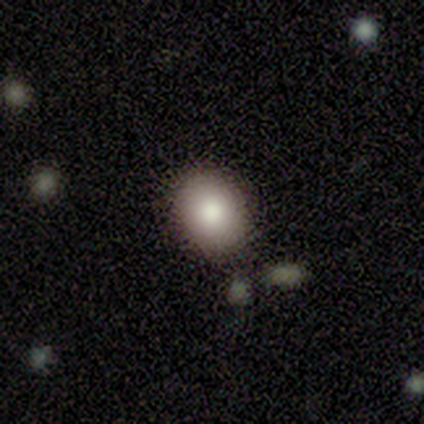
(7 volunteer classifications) Smooth or featured? featured or disk (57%)
Edge-on disk? no (100%)
Bar? no (100%)
Spiral arms? no (100%)
Bulge size? moderate (50%)
Merging? none (100%)